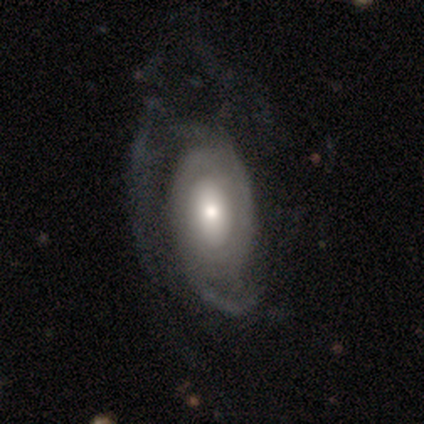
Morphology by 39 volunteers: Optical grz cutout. It shows a featured or disk galaxy (72%) with no bar (62%), 2 (50%) tight (41%) spiral arms (85%) and a moderate central bulge (54%). Merging: major disturbance (36%).